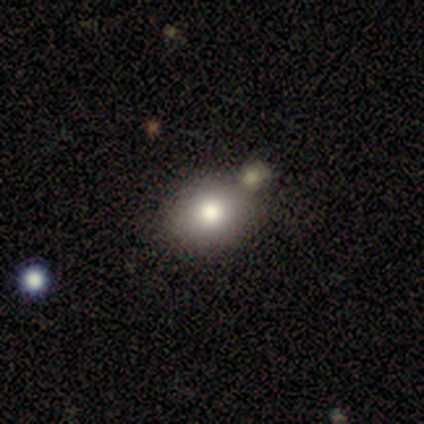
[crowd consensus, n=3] Smooth or featured? 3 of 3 (100%) said smooth. How rounded? 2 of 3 (67%) said in between. Merging? 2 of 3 (67%) said none.